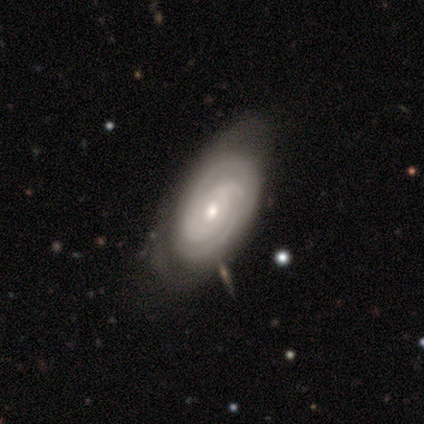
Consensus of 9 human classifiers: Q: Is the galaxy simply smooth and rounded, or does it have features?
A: featured or disk — 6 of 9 (67%).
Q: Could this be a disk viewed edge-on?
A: no — 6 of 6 (100%).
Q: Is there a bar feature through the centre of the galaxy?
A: no — 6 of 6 (100%).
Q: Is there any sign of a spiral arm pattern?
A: yes — 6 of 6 (100%).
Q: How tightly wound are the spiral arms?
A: tight — 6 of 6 (100%).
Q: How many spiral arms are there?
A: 2 — 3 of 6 (50%).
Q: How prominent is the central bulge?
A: moderate — 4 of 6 (67%).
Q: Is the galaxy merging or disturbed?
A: none — 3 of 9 (33%).